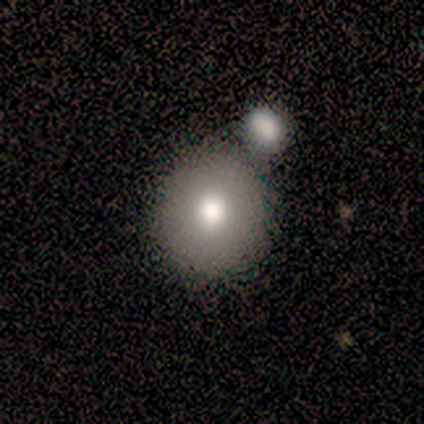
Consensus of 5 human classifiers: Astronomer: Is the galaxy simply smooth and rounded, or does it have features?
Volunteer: smooth — 80%.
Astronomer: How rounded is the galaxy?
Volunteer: round — 100%.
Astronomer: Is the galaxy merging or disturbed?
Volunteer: none — 50%.